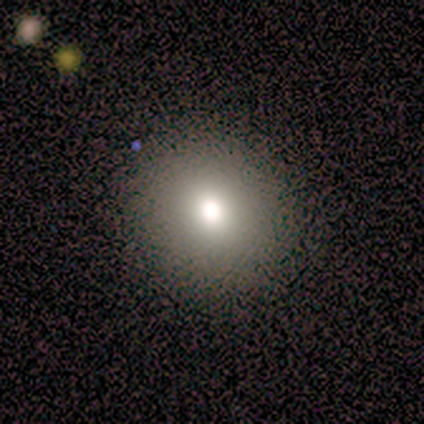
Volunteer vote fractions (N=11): Smooth or featured?
  - smooth: 82% *
  - featured or disk: 9%
  - star or artifact: 9%
How rounded?
  - round: 67% *
  - in between: 33%
  - cigar-shaped: 0%
Merging?
  - none: 100% *
  - minor disturbance: 0%
  - major disturbance: 0%
  - merger: 0%